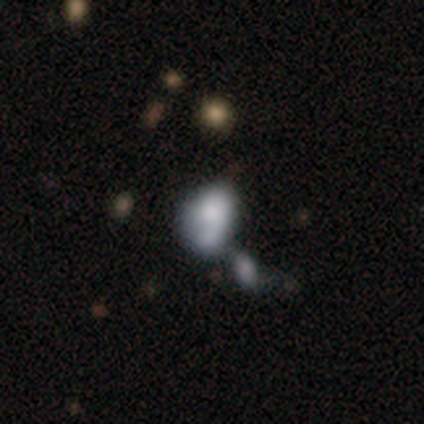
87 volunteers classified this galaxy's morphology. Q: Smooth or featured?
A: smooth (46%); runner-up: featured or disk (38%)
Q: How rounded?
A: in between (85%); runner-up: round (8%)
Q: Merging?
A: merger (47%); runner-up: minor disturbance (22%)